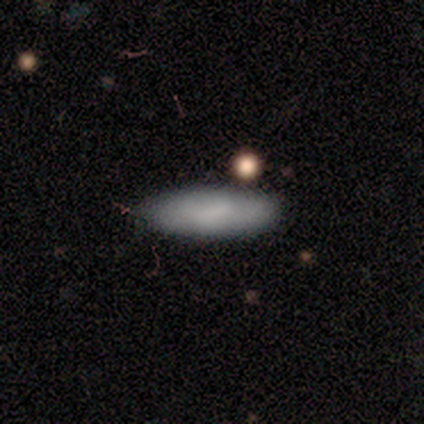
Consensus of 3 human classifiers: smooth-or-featured: smooth: 100% | featured or disk: 0% | star or artifact: 0%
  how-rounded: in between: 67% | cigar-shaped: 33% | round: 0%
  merging: none: 67% | minor disturbance: 33% | major disturbance: 0% | merger: 0%